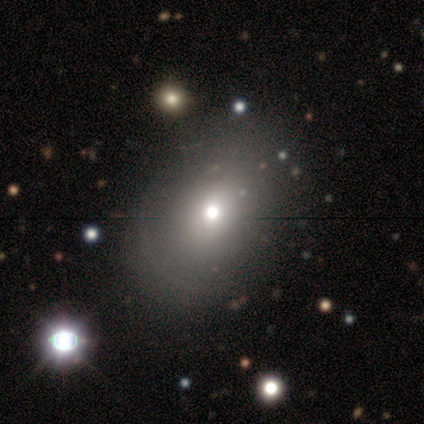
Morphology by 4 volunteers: Smooth or featured? 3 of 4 (75%) said smooth. How rounded? 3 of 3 (100%) said in between. Merging? 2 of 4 (50%, tied with minor disturbance) said none.